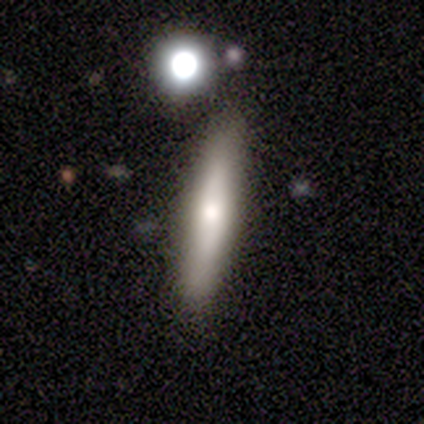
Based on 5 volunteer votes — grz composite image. It shows a featured or disk galaxy (60%) viewed edge-on (67%) with a rounded central bulge (100%). Merging: none (80%).